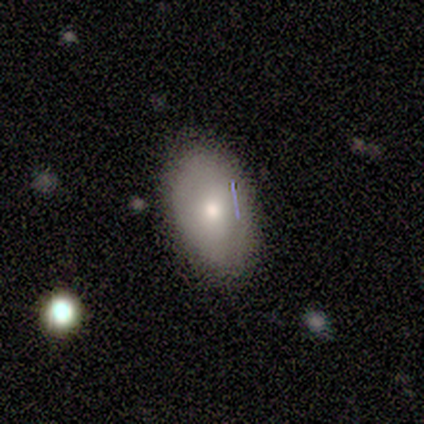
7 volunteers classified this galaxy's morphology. smooth_or_featured: smooth (p=0.57) [alt: featured or disk p=0.43]
how_rounded: in between (p=1.00)
merging: none (p=0.43) [alt: minor disturbance p=0.29]